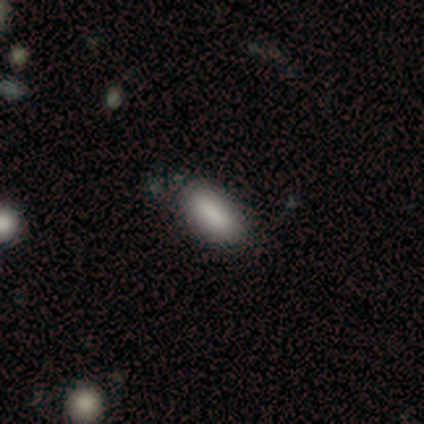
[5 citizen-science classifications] Smooth or featured: smooth — 80% (star or artifact — 20%)
How rounded: in between — 100%
Merging: none — 75% (merger — 25%)